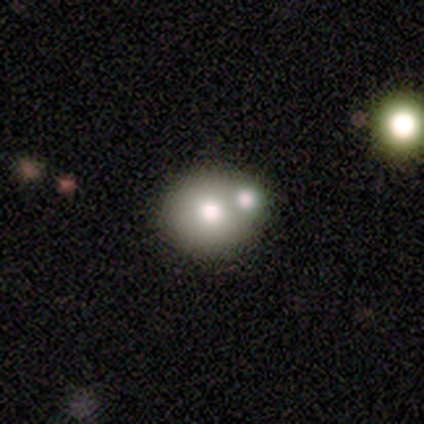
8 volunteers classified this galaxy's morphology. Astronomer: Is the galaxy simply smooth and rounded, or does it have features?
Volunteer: smooth — 62%.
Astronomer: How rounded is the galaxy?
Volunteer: round — 100%.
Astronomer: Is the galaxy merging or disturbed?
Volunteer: none — 57%.